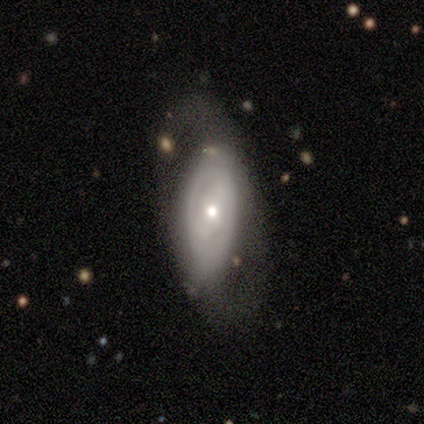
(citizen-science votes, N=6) smooth 33% (tied), featured or disk 33% (tied), star or artifact 33% (tied). Down the decision tree: how rounded — in between (100%); merging — none (50%, tied with major disturbance).